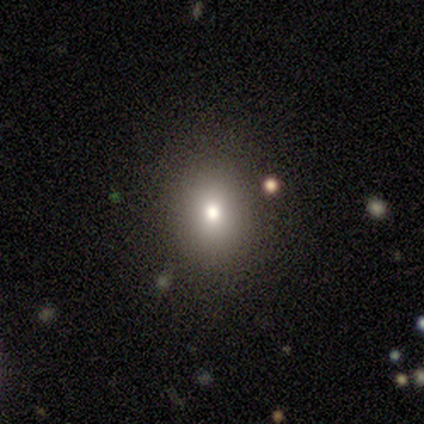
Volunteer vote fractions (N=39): A smooth galaxy with no disk features (69%) that is round (52%). Merging: none (94%).